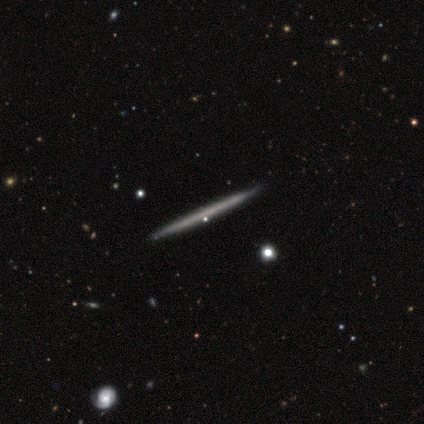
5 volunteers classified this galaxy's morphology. smooth-or-featured: featured or disk: 60% | smooth: 40% | star or artifact: 0%
  disk-edge-on: yes: 100% | no: 0%
    edge-on-bulge: none: 100% | boxy: 0% | rounded: 0%
  merging: none: 80% | minor disturbance: 20% | major disturbance: 0% | merger: 0%